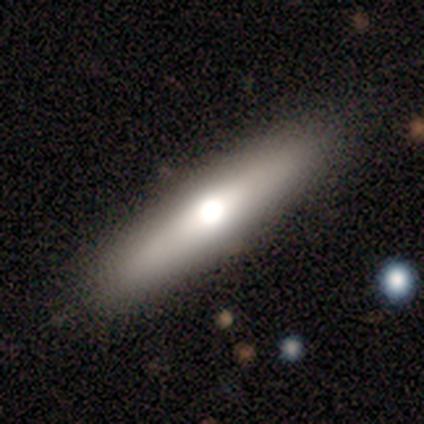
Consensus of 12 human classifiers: This appears to be a smooth galaxy with no disk features (67%) that is cigar-shaped (100%). Merging: none (92%).